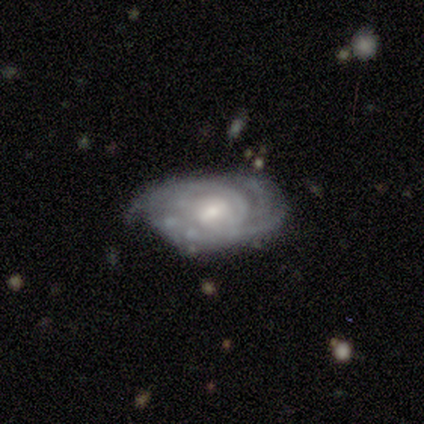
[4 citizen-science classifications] Smooth or featured: featured or disk — 100%
Edge-on disk: no — 100%
Bar: strong — 50% (tied with weak — 50%)
Spiral arms: yes — 100%
Spiral winding: tight — 100%
Spiral arm count: 2 — 25% (tied with 3 — 25%; 4 — 25%; can't tell — 25%)
Bulge size: moderate — 75% (small — 25%)
Merging: minor disturbance — 50% (none — 25%)